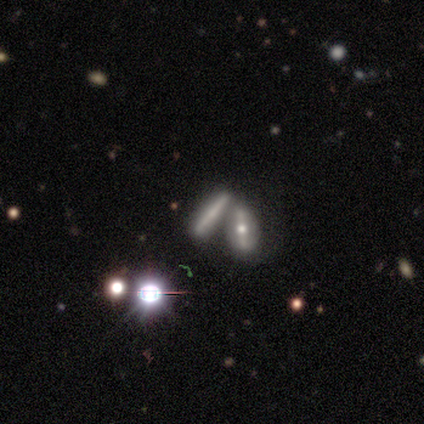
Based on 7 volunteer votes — Volunteers were most divided on "smooth or featured": smooth: 43%, featured or disk: 29%, star or artifact: 29%. More confident: how rounded — cigar-shaped (67%); merging — none (60%).